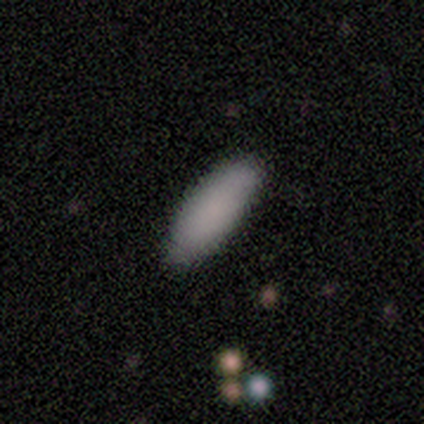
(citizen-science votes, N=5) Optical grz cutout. It shows a smooth galaxy with no disk features (80%) that is in between round and cigar-shaped (50%, tied with cigar-shaped). Merging: none (100%).